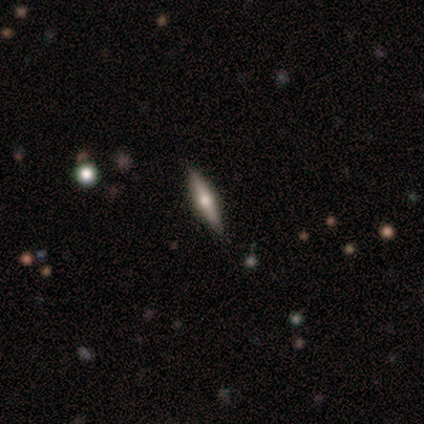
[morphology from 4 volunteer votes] smooth_or_featured: smooth (p=0.50) [tied with: featured or disk p=0.50]
how_rounded: cigar-shaped (p=1.00)
merging: none (p=1.00)